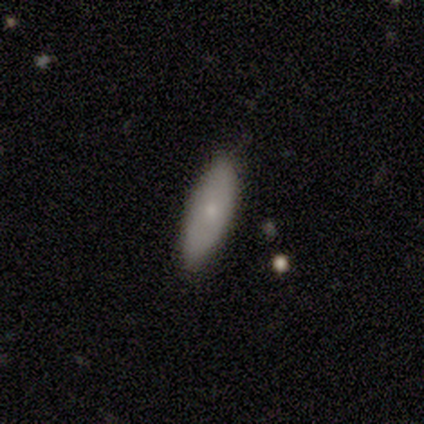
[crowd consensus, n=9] Overall: smooth (78%). How rounded: in between (86%). Merging: none (89%).